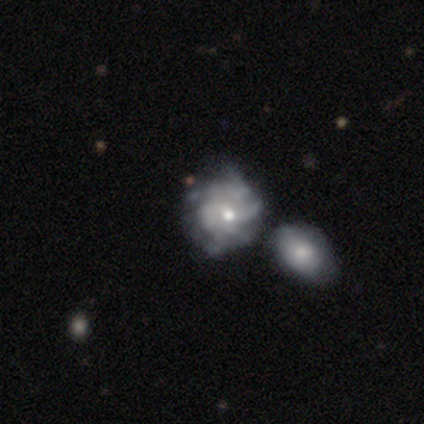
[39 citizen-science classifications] smooth_or_featured: featured or disk (p=0.82) [alt: smooth p=0.15]
disk_edge_on: no (p=0.97) [alt: yes p=0.03]
bar: no (p=0.94) [alt: weak p=0.06]
has_spiral_arms: yes (p=0.65) [alt: no p=0.35]
spiral_winding: tight (p=0.50) [alt: loose p=0.30]
spiral_arm_count: can't tell (p=0.65) [alt: more than 4 p=0.15]
bulge_size: small (p=0.58) [alt: moderate p=0.39]
merging: merger (p=0.39) [alt: none p=0.32]